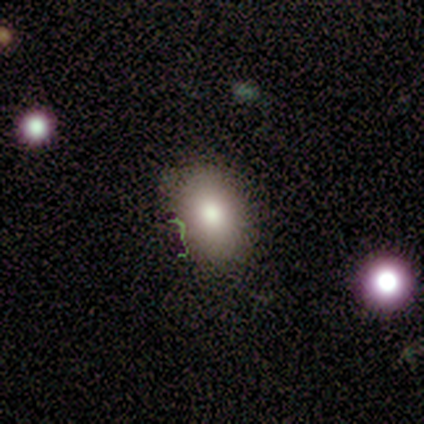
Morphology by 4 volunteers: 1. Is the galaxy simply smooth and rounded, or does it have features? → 75% smooth, 25% featured or disk, 0% star or artifact.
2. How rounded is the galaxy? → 100% in between, 0% round, 0% cigar-shaped.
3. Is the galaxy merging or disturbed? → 100% none, 0% minor disturbance, 0% major disturbance, 0% merger.